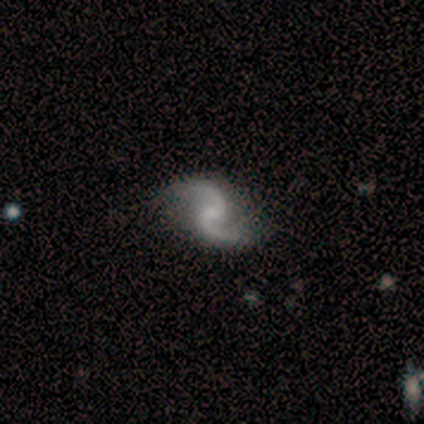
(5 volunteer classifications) smooth_or_featured: featured or disk (p=1.00)
disk_edge_on: no (p=1.00)
bar: no (p=0.60) [alt: weak p=0.40]
has_spiral_arms: yes (p=1.00)
spiral_winding: loose (p=0.80) [alt: medium p=0.20]
spiral_arm_count: 2 (p=1.00)
bulge_size: small (p=0.60) [alt: moderate p=0.20]
merging: none (p=1.00)